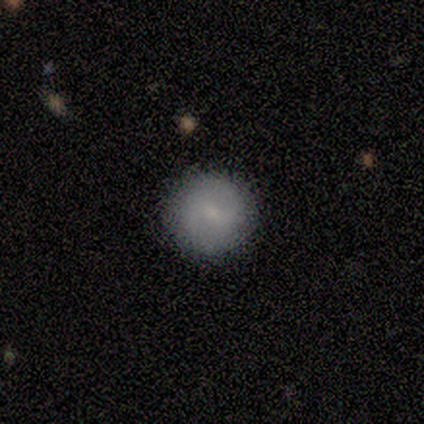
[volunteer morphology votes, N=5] Smooth or featured: featured or disk — 60% (smooth — 40%)
Edge-on disk: no — 100%
Bar: weak — 67% (strong — 33%)
Spiral arms: yes — 100%
Spiral winding: tight — 33% (tied with medium — 33%; loose — 33%)
Spiral arm count: 2 — 67% (can't tell — 33%)
Bulge size: small — 100%
Merging: none — 100%